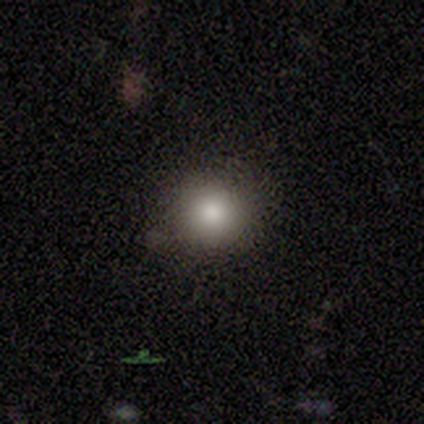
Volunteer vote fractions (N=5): smooth 80%, featured or disk 20%, star or artifact 0%. Down the decision tree: how rounded — round (100%); merging — none (80%).